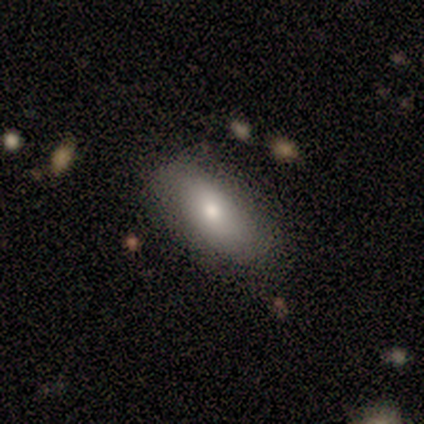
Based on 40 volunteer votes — Overall: smooth (88%). How rounded: in between (86%). Merging: none (74%).